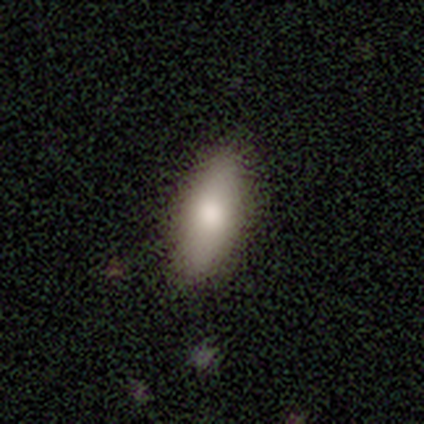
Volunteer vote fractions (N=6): Morphology: type=featured or disk (67%); edge-on=no (100%); bar=no (100%); spiral arms=no (100%); bulge=large (50%, tied with moderate); merging=none (67%).